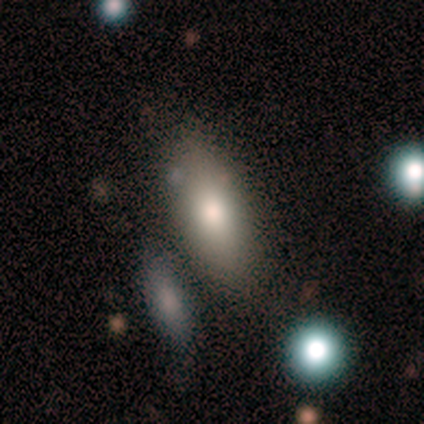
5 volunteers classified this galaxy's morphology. A smooth galaxy with no disk features (80%) that is in between round and cigar-shaped (75%). Merging: none (80%).